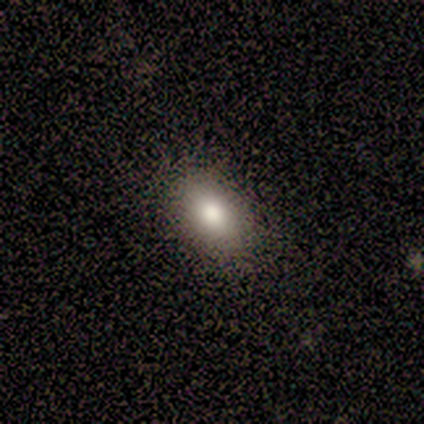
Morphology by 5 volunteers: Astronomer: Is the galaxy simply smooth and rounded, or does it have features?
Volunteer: smooth — 80%.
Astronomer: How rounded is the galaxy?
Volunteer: in between — 100%.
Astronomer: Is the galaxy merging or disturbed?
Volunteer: none — 100%.